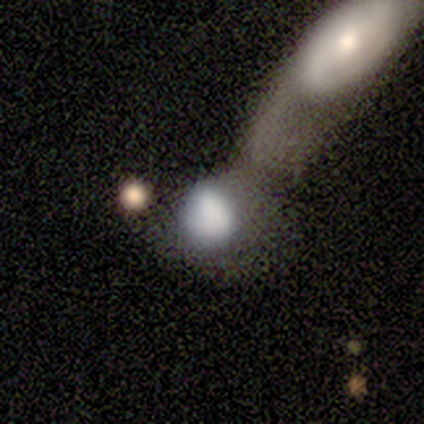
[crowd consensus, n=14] Volunteers were most divided on "how rounded": round: 64%, in between: 36%, cigar-shaped: 0%. More confident: smooth or featured — smooth (79%); merging — merger (77%).